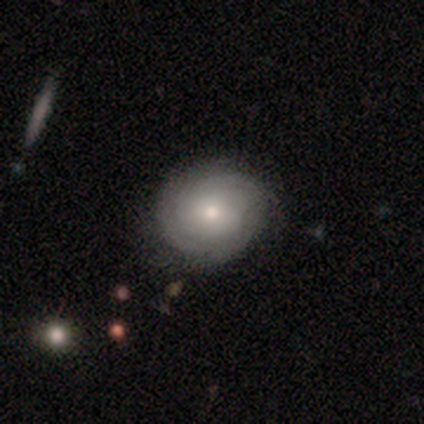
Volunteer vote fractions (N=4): Smooth or featured?
  - smooth: 75% *
  - featured or disk: 25%
  - star or artifact: 0%
How rounded?
  - round: 67% *
  - in between: 33%
  - cigar-shaped: 0%
Merging?
  - none: 75% *
  - merger: 25%
  - minor disturbance: 0%
  - major disturbance: 0%